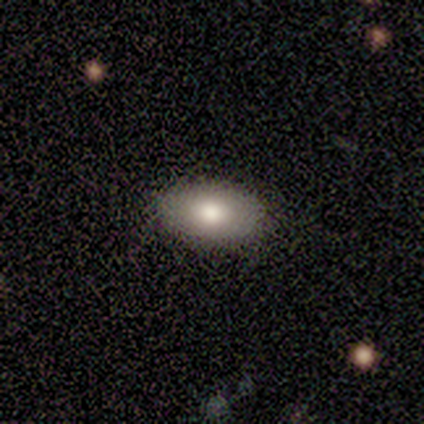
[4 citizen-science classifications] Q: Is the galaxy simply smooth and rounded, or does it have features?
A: smooth — 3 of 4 (75%).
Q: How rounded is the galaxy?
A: in between — 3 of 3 (100%).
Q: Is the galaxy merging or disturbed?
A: none — 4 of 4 (100%).